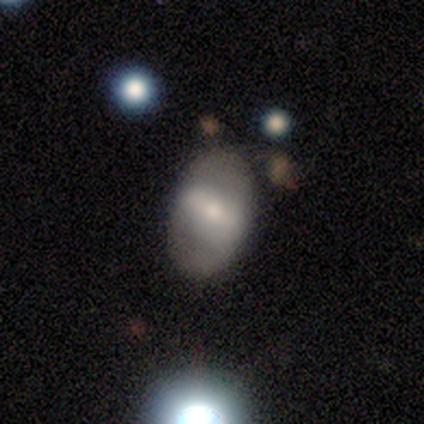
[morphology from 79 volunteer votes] This is possibly a smooth galaxy (47%, tied with featured or disk). How rounded: clearly in between (89%). Merging: possibly none (47%).